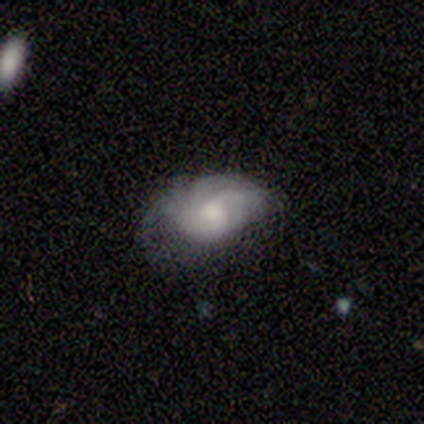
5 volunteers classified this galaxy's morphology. Smooth or featured: featured or disk — 60% (smooth — 40%)
Edge-on disk: no — 100%
Bar: no — 100%
Spiral arms: yes — 100%
Spiral winding: medium — 67% (loose — 33%)
Spiral arm count: 2 — 67% (can't tell — 33%)
Bulge size: moderate — 67% (small — 33%)
Merging: minor disturbance — 60% (none — 20%)